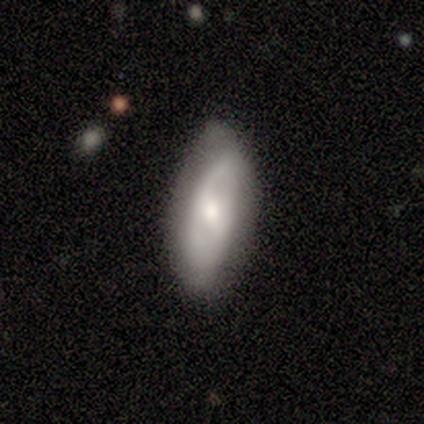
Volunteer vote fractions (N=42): Volunteers were most divided on "bar" (2-way tie): weak: 45%, no: 45%, strong: 10%. More confident: edge-on disk — no (94%); smooth or featured — featured or disk (74%); spiral arm count — 2 (73%); bulge size — moderate (66%); merging — none (65%); spiral winding — medium (60%); spiral arms — yes (52%).